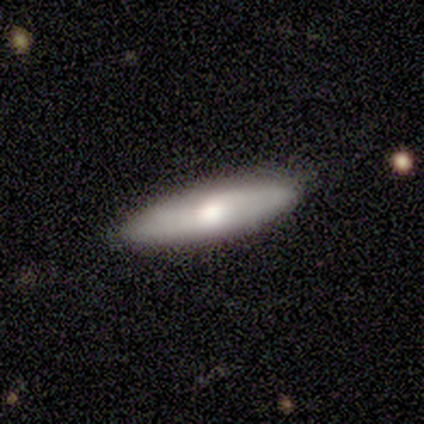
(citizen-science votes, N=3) Smooth or featured? smooth (100%)
How rounded? in between (67%)
Merging? none (67%)